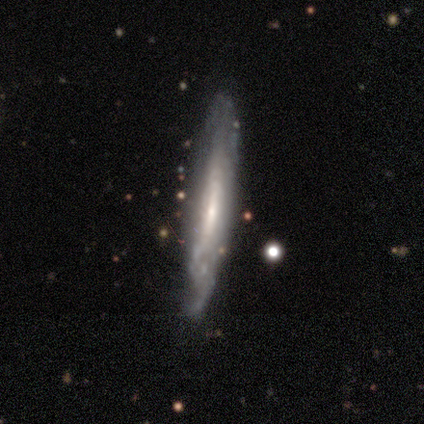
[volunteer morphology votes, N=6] Smooth or featured: smooth — 50% (tied with featured or disk — 50%)
How rounded: cigar-shaped — 100%
Merging: none — 83% (major disturbance — 17%)